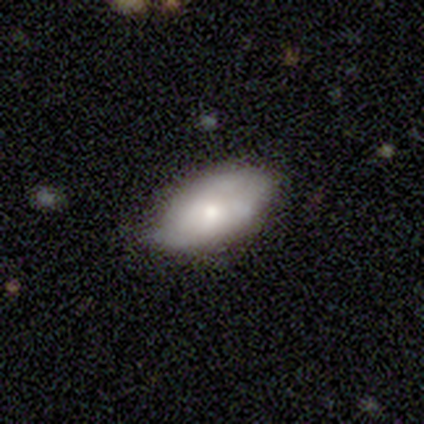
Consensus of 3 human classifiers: smooth_or_featured: smooth (p=0.33) [tied with: featured or disk p=0.33, star or artifact p=0.33]
how_rounded: in between (p=1.00)
merging: major disturbance (p=0.50) [tied with: merger p=0.50]